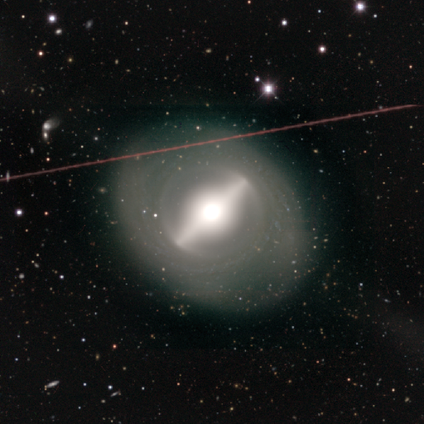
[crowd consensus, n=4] Smooth or featured? featured or disk (75%)
Edge-on disk? no (67%)
Bar? strong (100%)
Spiral arms? yes (50%, tied with no)
Spiral winding? loose (100%)
Spiral arm count? 2 (100%)
Bulge size? moderate (50%, tied with none)
Merging? none (75%)